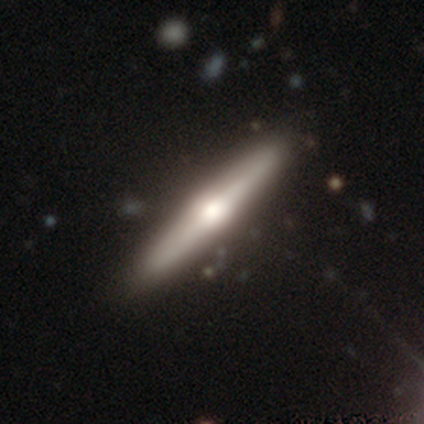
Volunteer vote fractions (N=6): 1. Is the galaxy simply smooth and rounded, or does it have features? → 83% featured or disk, 17% smooth, 0% star or artifact.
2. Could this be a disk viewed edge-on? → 100% yes, 0% no.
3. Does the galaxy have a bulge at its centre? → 80% rounded, 20% boxy, 0% none.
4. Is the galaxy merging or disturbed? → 83% none, 17% minor disturbance, 0% major disturbance, 0% merger.